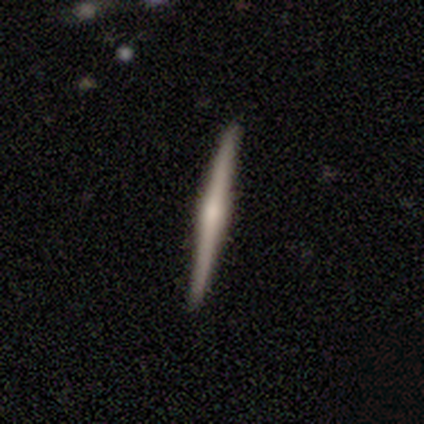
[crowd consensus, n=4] Morphology: type=featured or disk (100%); edge-on=yes (100%); edge-on bulge=none (50%, tied with rounded); merging=none (100%).